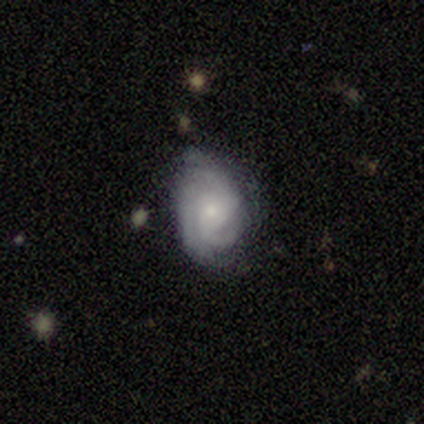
Q: Smooth or featured?
A: featured or disk (100%)
Q: Edge-on disk?
A: no (100%)
Q: Bar?
A: no (80%); runner-up: weak (20%)
Q: Spiral arms?
A: yes (100%)
Q: Spiral winding?
A: medium (80%); runner-up: tight (20%)
Q: Spiral arm count?
A: 3 (40%); runner-up: 2 (20%)
Q: Bulge size?
A: small (80%); runner-up: moderate (20%)
Q: Merging?
A: none (60%); runner-up: minor disturbance (40%)